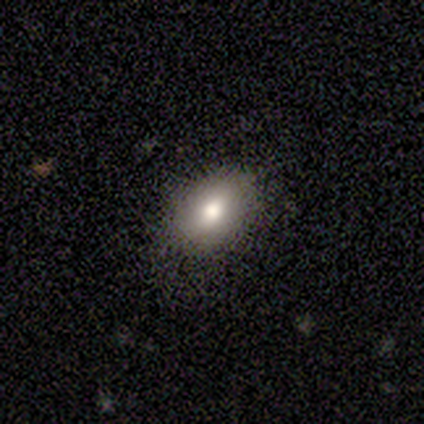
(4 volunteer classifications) smooth 75%, featured or disk 25%, star or artifact 0%. Down the decision tree: how rounded — round (33%, tied with in between and cigar-shaped); merging — none (50%).